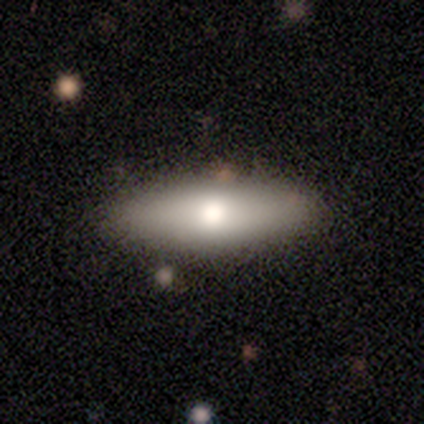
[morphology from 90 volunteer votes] A smooth galaxy with no disk features (71%) that is in between round and cigar-shaped (50%, tied with cigar-shaped).

Vote fractions:
- Smooth or featured? smooth: 71% / featured or disk: 23% / star or artifact: 6%
- How rounded? in between: 50% (tied) / cigar-shaped: 50% (tied) / round: 0%
- Merging? none: 86% / minor disturbance: 12% / major disturbance: 1% / merger: 1%